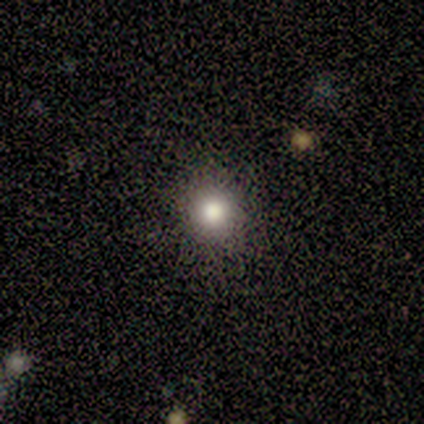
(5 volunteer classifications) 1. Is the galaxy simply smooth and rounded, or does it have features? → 100% smooth, 0% featured or disk, 0% star or artifact.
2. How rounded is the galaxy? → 80% round, 20% in between, 0% cigar-shaped.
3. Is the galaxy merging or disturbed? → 60% none, 40% minor disturbance, 0% major disturbance, 0% merger.